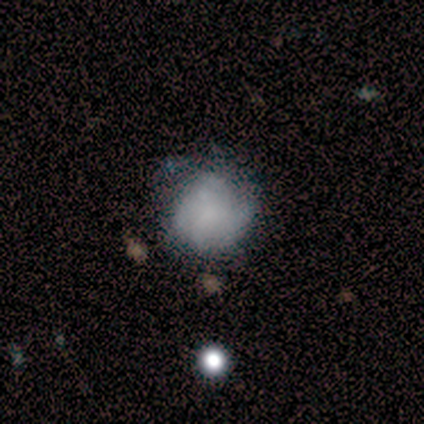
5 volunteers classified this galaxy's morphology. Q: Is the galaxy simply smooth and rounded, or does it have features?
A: smooth — 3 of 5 (60%).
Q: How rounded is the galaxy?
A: round — 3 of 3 (100%).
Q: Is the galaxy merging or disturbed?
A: none — 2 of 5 (40%).